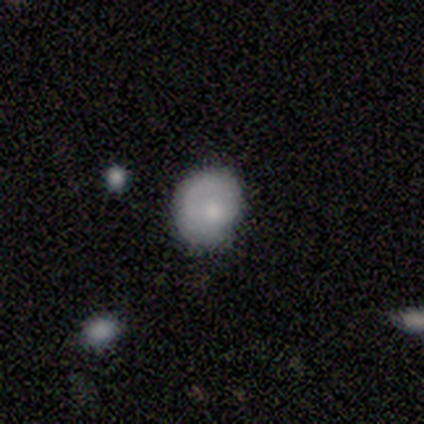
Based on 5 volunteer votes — Q: Smooth or featured?
A: smooth (80%); runner-up: featured or disk (20%)
Q: How rounded?
A: in between (75%); runner-up: round (25%)
Q: Merging?
A: none (60%); runner-up: minor disturbance (20%)